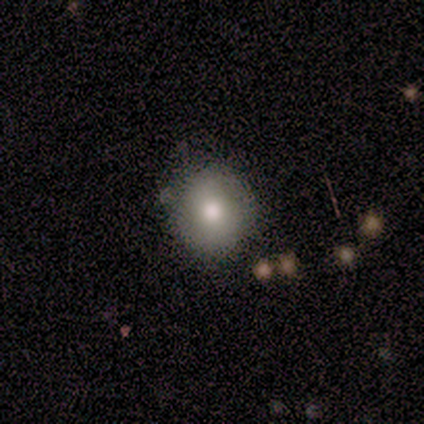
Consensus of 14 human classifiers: Smooth or featured: smooth — 79% (featured or disk — 21%)
How rounded: round — 91% (in between — 9%)
Merging: none — 93% (minor disturbance — 7%)